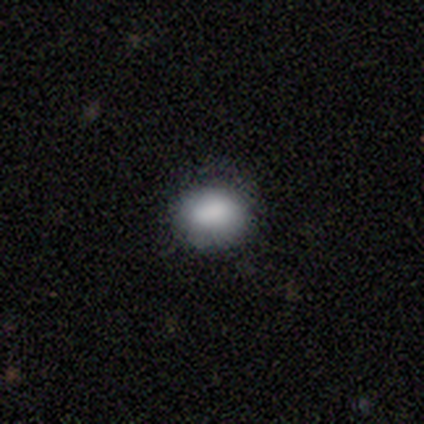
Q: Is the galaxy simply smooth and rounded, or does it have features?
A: smooth — 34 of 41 (83%).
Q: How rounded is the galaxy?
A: in between — 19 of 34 (56%).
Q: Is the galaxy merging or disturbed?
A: none — 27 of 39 (69%).